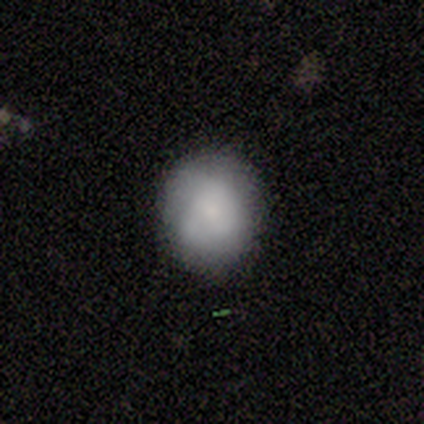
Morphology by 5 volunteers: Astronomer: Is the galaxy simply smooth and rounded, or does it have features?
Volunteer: smooth — 60% (runner-up: featured or disk, 40%).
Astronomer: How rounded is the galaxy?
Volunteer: round — 100%.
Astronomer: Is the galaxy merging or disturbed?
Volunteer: none — 100%.